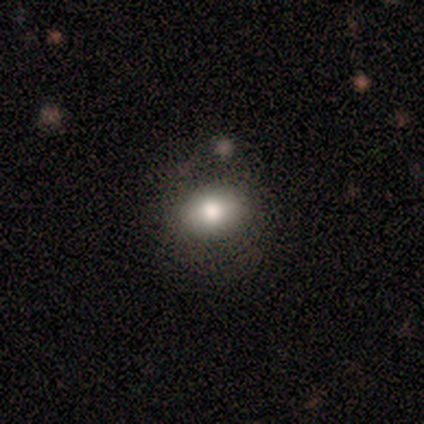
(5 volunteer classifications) A smooth galaxy with no disk features (80%) that is in between round and cigar-shaped (75%). Merging: none (75%).